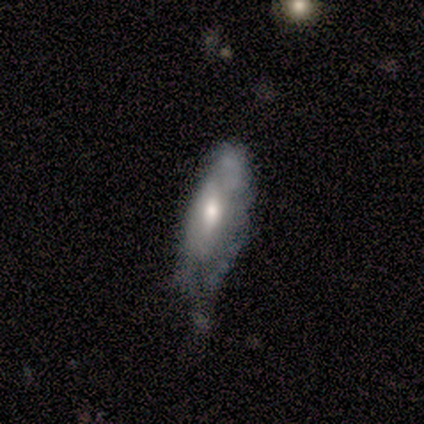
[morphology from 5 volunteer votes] smooth 40% (tied), featured or disk 40% (tied), star or artifact 20%. Down the decision tree: how rounded — in between (50%, tied with cigar-shaped); merging — none (50%).